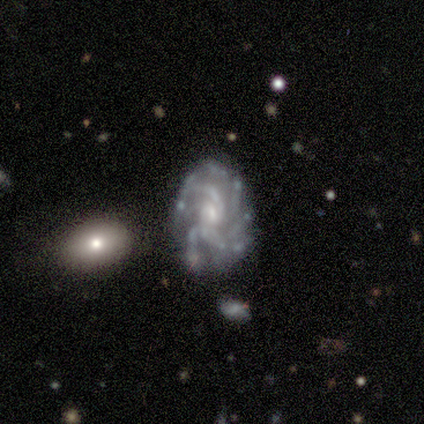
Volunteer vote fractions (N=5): smooth_or_featured: featured or disk (p=1.00)
disk_edge_on: no (p=1.00)
bar: weak (p=0.40) [tied with: no p=0.40]
has_spiral_arms: yes (p=1.00)
spiral_winding: tight (p=0.60) [alt: medium p=0.20]
spiral_arm_count: more than 4 (p=0.60) [alt: 3 p=0.20]
bulge_size: small (p=0.60) [alt: moderate p=0.40]
merging: none (p=0.60) [alt: minor disturbance p=0.40]